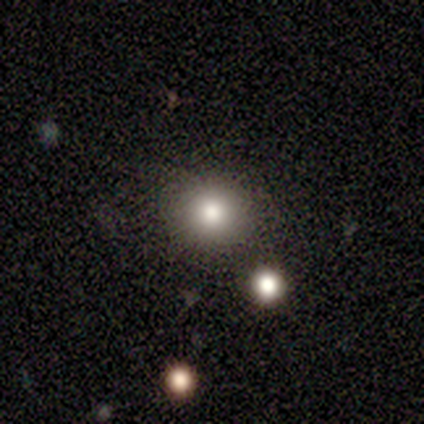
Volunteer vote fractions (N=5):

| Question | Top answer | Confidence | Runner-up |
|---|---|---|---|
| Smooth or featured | smooth | 60% | star or artifact (40%) |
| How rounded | round | 100% | — |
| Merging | none | 100% | — |